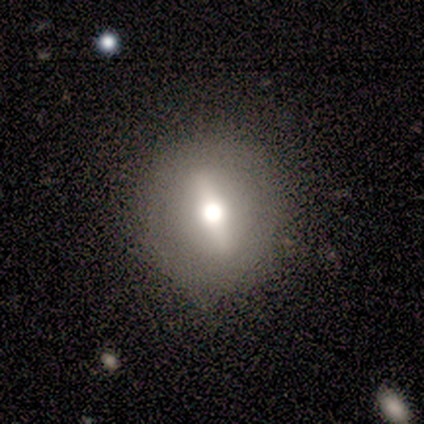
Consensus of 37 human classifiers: Smooth or featured? smooth (57%)
How rounded? round (67%)
Merging? none (76%)